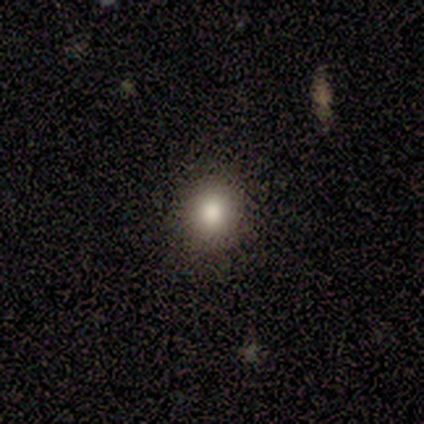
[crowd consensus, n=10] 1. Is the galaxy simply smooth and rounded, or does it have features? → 80% smooth, 20% star or artifact, 0% featured or disk.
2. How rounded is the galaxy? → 75% round, 25% in between, 0% cigar-shaped.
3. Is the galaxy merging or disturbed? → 88% none, 12% minor disturbance, 0% major disturbance, 0% merger.